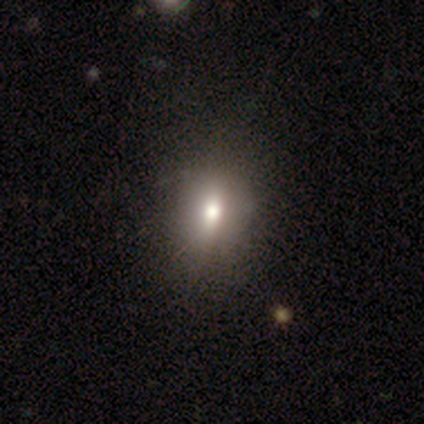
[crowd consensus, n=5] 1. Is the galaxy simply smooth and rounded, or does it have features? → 100% smooth, 0% featured or disk, 0% star or artifact.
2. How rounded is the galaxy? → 100% in between, 0% round, 0% cigar-shaped.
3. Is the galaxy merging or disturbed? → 100% none, 0% minor disturbance, 0% major disturbance, 0% merger.